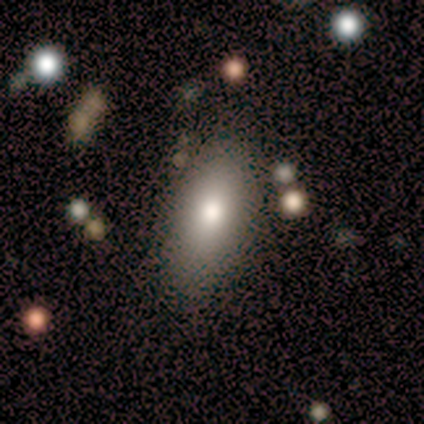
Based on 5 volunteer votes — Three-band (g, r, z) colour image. It shows a smooth galaxy with no disk features (100%) that is in between round and cigar-shaped (100%). Merging: none (80%).